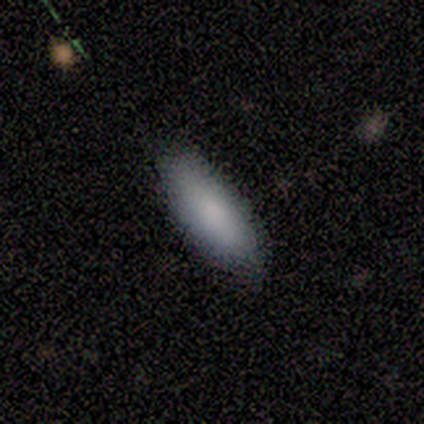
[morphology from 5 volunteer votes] This appears to be a smooth galaxy with no disk features (80%) that is in between round and cigar-shaped (100%). Merging: none (100%).